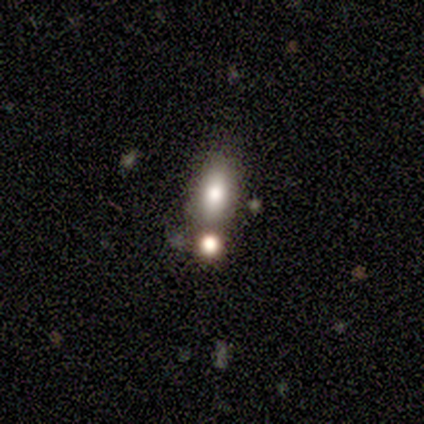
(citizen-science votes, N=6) A smooth galaxy with no disk features (83%) that is in between round and cigar-shaped (80%). Merging: none (67%).